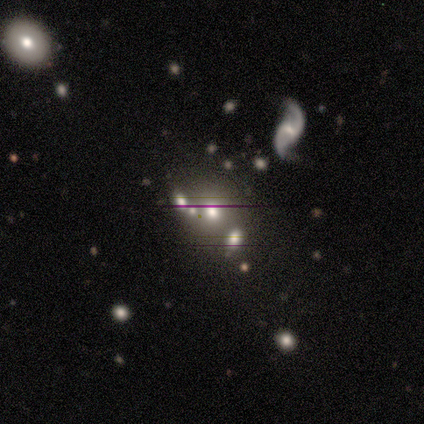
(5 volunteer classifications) Smooth or featured? 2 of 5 (40%, tied with star or artifact) said smooth. How rounded? 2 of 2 (100%) said round. Merging? 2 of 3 (67%) said merger.